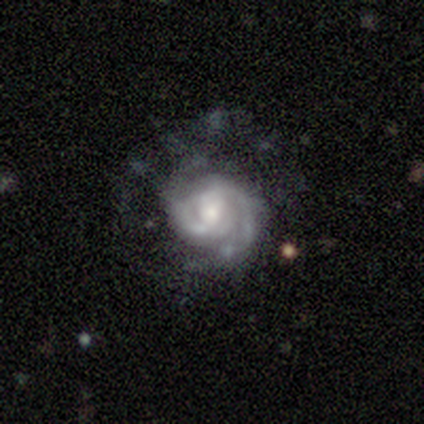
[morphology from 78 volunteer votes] Smooth or featured?
  - featured or disk: 94% *
  - smooth: 4%
  - star or artifact: 3%
Edge-on disk?
  - no: 100% *
  - yes: 0%
Bar?
  - no: 55% *
  - weak: 38%
  - strong: 7%
Spiral arms?
  - yes: 96% *
  - no: 4%
Spiral winding?
  - tight: 56% *
  - medium: 39%
  - loose: 6%
Spiral arm count?
  - 2: 76% *
  - can't tell: 19%
  - 3: 3%
  - 1: 1%
  - more than 4: 1%
  - 4: 0%
Bulge size?
  - moderate: 40% *
  - small: 33%
  - large: 22%
  - none: 5%
  - dominant: 0%
Merging?
  - none: 21% *
  - major disturbance: 17%
  - minor disturbance: 11%
  - merger: 4%